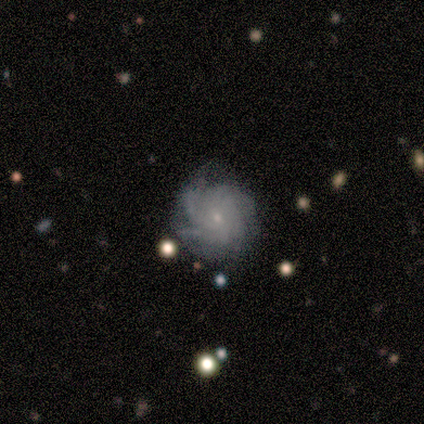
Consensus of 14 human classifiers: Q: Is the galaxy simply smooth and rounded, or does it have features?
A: featured or disk — 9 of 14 (64%).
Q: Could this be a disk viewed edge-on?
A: no — 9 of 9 (100%).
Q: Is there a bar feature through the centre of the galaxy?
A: no — 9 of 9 (100%).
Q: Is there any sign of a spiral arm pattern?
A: yes — 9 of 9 (100%).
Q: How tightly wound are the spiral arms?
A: tight — 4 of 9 (44%).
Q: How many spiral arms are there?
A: can't tell — 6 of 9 (67%).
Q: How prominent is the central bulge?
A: small — 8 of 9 (89%).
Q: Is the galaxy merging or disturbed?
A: none — 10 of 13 (77%).